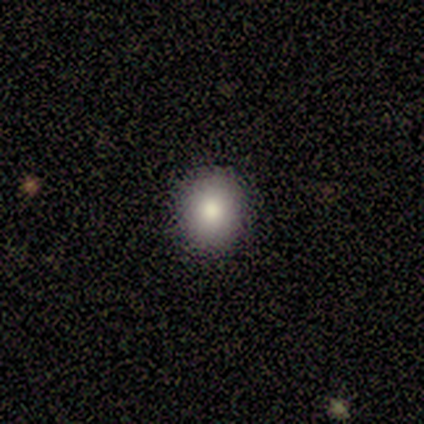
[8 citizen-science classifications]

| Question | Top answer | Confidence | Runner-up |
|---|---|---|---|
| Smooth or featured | smooth | 100% | — |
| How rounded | round | 75% | in between (25%) |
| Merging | none | 100% | — |